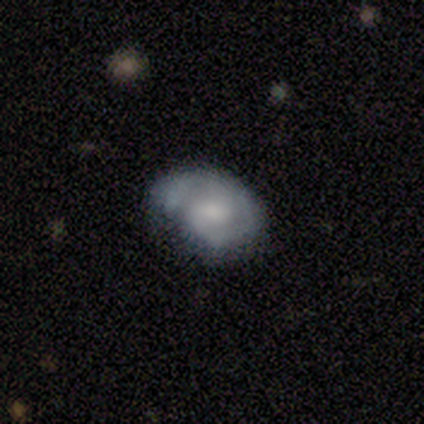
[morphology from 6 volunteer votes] smooth-or-featured: smooth: 50% (tied) | featured or disk: 50% (tied) | star or artifact: 0%
  how-rounded: in between: 67% | round: 33% | cigar-shaped: 0%
  merging: none: 50% | minor disturbance: 33% | merger: 17% | major disturbance: 0%